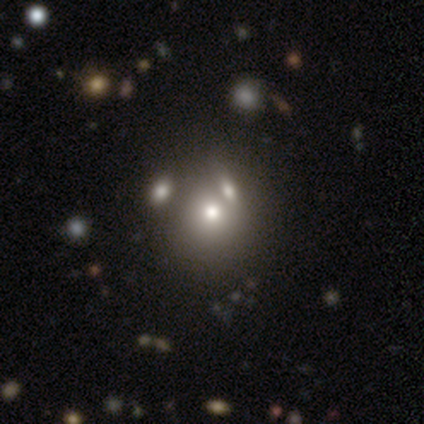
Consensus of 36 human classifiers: This is likely a smooth galaxy (61%). How rounded: clearly round (86%). Merging: likely merger (63%).